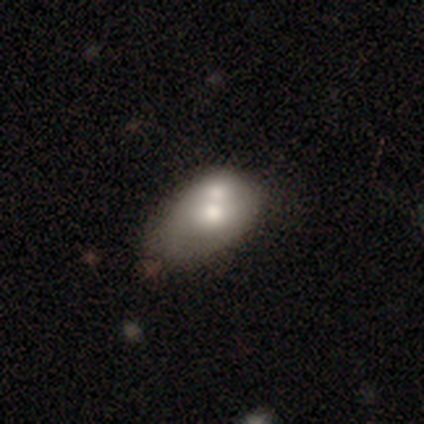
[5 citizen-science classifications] A smooth galaxy with no disk features (60%) that is in between round and cigar-shaped (100%).

Vote fractions:
- Smooth or featured? smooth: 60% / featured or disk: 40% / star or artifact: 0%
- How rounded? in between: 100% / round: 0% / cigar-shaped: 0%
- Merging? merger: 80% / major disturbance: 20% / none: 0% / minor disturbance: 0%